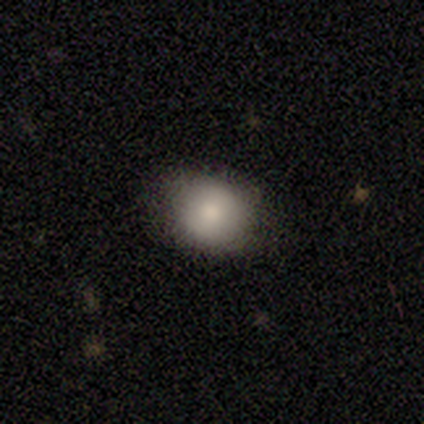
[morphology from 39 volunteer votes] Volunteers were most divided on "how rounded": round: 63%, in between: 37%, cigar-shaped: 0%. More confident: smooth or featured — smooth (90%); merging — none (84%).